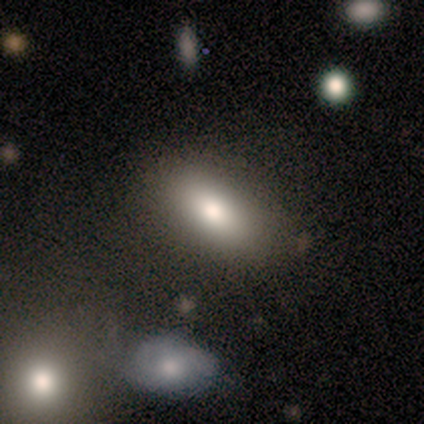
This appears to be a smooth galaxy with no disk features (80%) that is in between round and cigar-shaped (75%). Merging: none (100%).